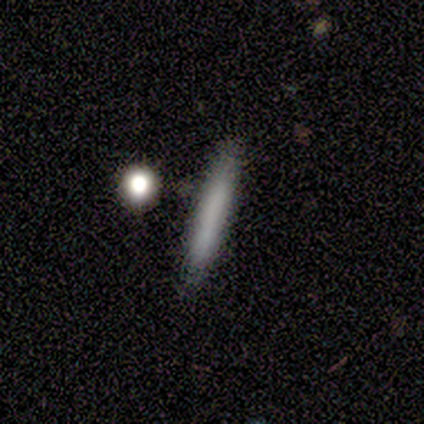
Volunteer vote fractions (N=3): Q: Smooth or featured?
A: featured or disk (67%); runner-up: star or artifact (33%)
Q: Edge-on disk?
A: yes (100%)
Q: Edge-on bulge?
A: none (50%); tied with: rounded (50%)
Q: Merging?
A: none (100%)